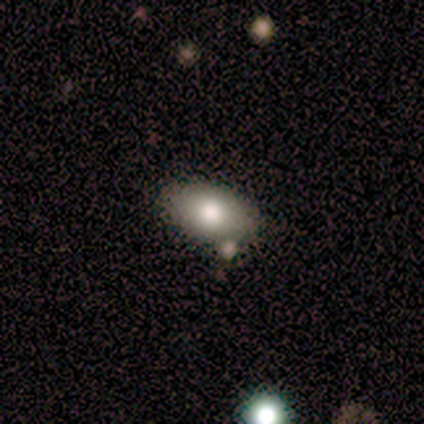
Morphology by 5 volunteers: A smooth galaxy with no disk features (60%) that is in between round and cigar-shaped (100%). Merging: none (75%).